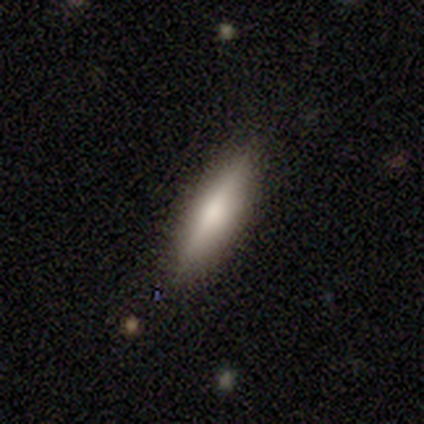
A smooth galaxy with no disk features (60%) that is cigar-shaped (100%).

Vote fractions:
- Smooth or featured? smooth: 60% / featured or disk: 40% / star or artifact: 0%
- How rounded? cigar-shaped: 100% / round: 0% / in between: 0%
- Merging? none: 100% / minor disturbance: 0% / major disturbance: 0% / merger: 0%